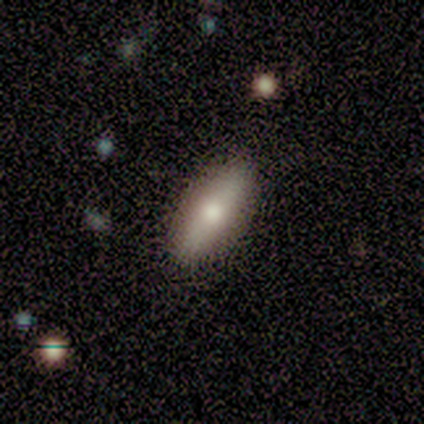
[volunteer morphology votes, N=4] Q: Smooth or featured?
A: smooth (50%); tied with: featured or disk (50%)
Q: How rounded?
A: in between (100%)
Q: Merging?
A: none (100%)